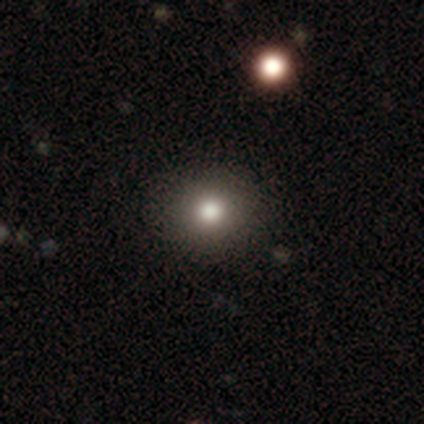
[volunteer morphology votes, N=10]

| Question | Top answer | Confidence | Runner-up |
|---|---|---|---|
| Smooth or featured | smooth | 100% | — |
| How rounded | round | 90% | in between (10%) |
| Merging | none | 100% | — |